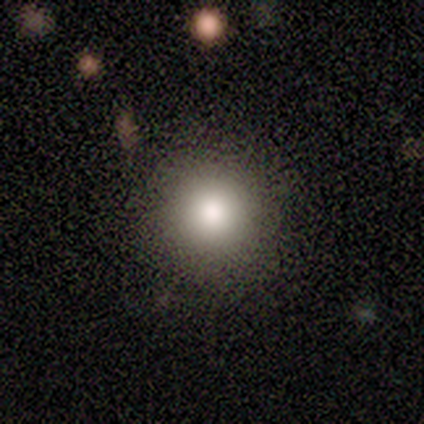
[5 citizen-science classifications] A smooth galaxy with no disk features (80%) that is round (100%).

Vote fractions:
- Smooth or featured? smooth: 80% / featured or disk: 20% / star or artifact: 0%
- How rounded? round: 100% / in between: 0% / cigar-shaped: 0%
- Merging? none: 80% / major disturbance: 20% / minor disturbance: 0% / merger: 0%